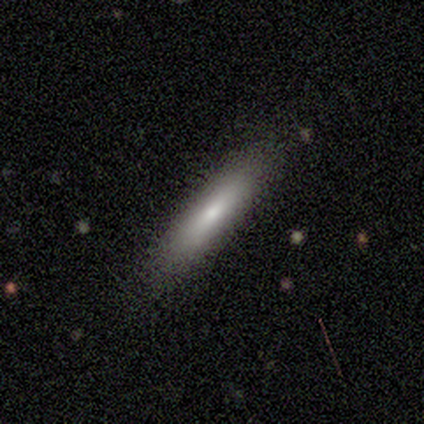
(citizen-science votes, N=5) Smooth or featured?
  - smooth: 60% *
  - featured or disk: 20%
  - star or artifact: 20%
How rounded?
  - cigar-shaped: 100% *
  - round: 0%
  - in between: 0%
Merging?
  - none: 100% *
  - minor disturbance: 0%
  - major disturbance: 0%
  - merger: 0%